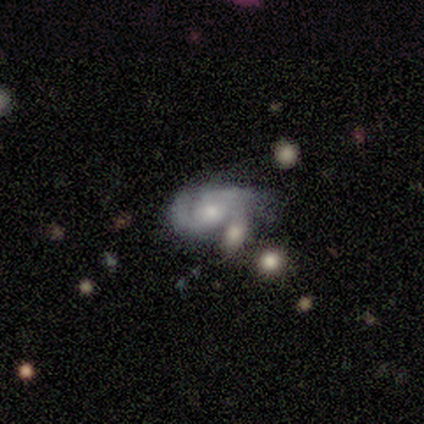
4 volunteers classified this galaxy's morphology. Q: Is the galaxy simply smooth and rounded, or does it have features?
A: featured or disk — 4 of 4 (100%).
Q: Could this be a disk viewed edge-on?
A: no — 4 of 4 (100%).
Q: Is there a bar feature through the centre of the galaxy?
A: weak — 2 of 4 (50%, tied with no).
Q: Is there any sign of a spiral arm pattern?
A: yes — 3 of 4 (75%).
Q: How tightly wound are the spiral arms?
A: loose — 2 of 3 (67%).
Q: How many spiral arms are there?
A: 2 — 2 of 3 (67%).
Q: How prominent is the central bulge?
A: moderate — 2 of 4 (50%).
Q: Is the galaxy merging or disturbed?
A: major disturbance — 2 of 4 (50%).